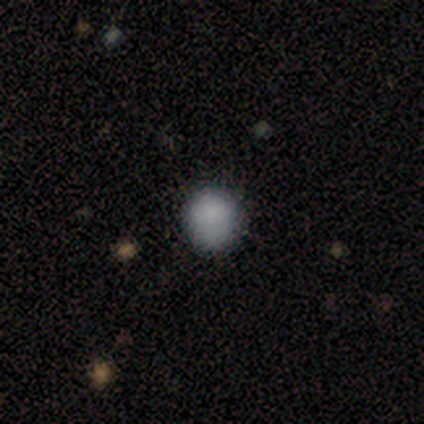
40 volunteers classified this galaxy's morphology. type=smooth (78%); roundness=round (90%); merging=none (83%).